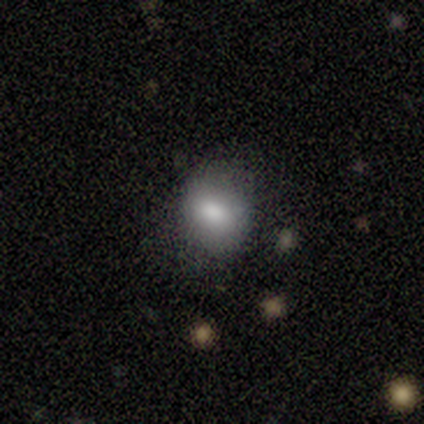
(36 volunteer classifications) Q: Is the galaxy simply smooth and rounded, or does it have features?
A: smooth — 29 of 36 (81%).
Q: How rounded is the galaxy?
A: round — 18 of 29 (62%).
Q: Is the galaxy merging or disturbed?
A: none — 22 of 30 (73%).